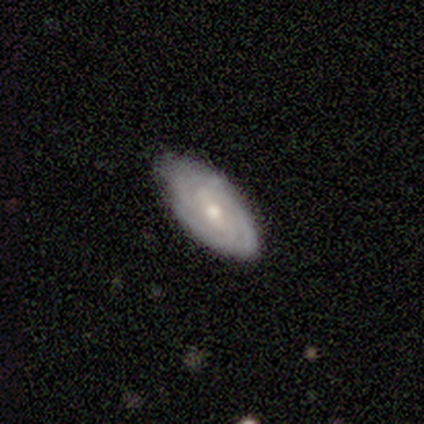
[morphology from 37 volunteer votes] Q: Smooth or featured?
A: featured or disk (86%); runner-up: smooth (8%)
Q: Edge-on disk?
A: no (100%)
Q: Bar?
A: no (47%); runner-up: weak (41%)
Q: Spiral arms?
A: yes (88%); runner-up: no (12%)
Q: Spiral winding?
A: tight (75%); runner-up: medium (25%)
Q: Spiral arm count?
A: 3 (46%); runner-up: 4 (21%)
Q: Bulge size?
A: moderate (59%); runner-up: small (34%)
Q: Merging?
A: none (77%); runner-up: minor disturbance (17%)